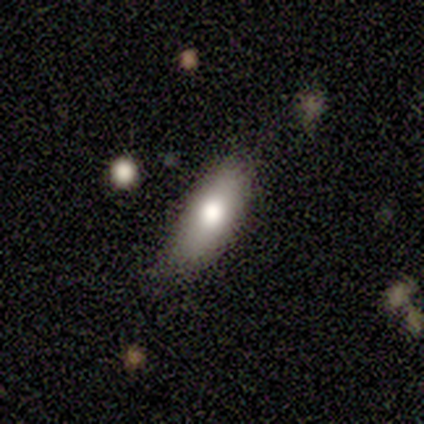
Overall: featured or disk (40%, tied with star or artifact). Edge-on disk: no (100%). Bar: no (100%). Spiral arms: no (100%). Bulge size: moderate (100%). Merging: none (67%; minor disturbance 33%).